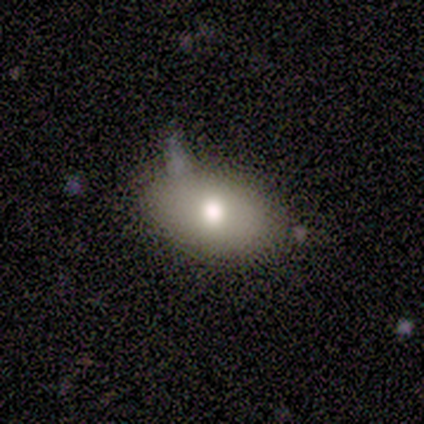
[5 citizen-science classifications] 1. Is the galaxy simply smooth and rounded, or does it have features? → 80% smooth, 20% featured or disk, 0% star or artifact.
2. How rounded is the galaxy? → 75% in between, 25% cigar-shaped, 0% round.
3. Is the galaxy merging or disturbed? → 60% none, 20% minor disturbance, 20% merger, 0% major disturbance.